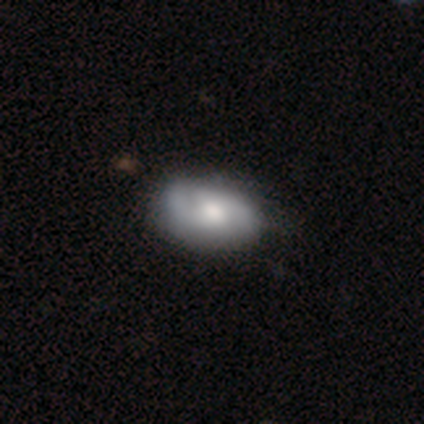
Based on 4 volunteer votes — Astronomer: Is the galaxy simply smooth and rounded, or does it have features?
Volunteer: smooth — 50%, tied with featured or disk at 50%.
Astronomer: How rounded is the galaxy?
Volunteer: in between — 100%.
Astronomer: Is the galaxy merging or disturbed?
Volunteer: none — 100%.